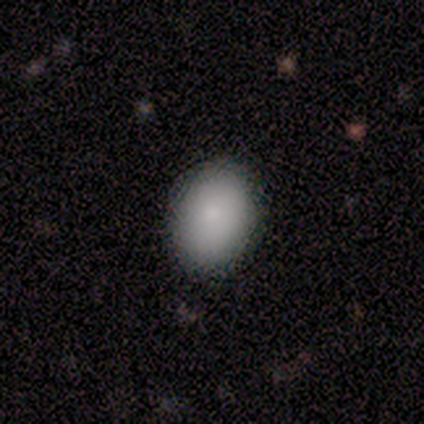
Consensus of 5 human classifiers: Smooth or featured? smooth (80%)
How rounded? round (50%, tied with in between)
Merging? none (100%)